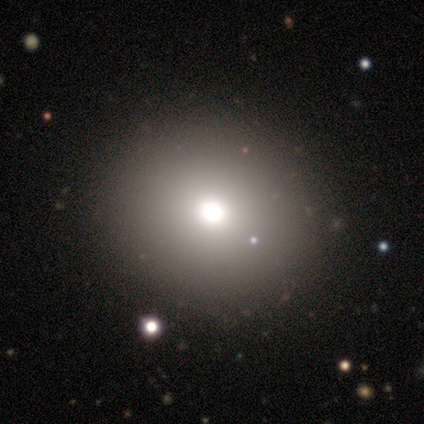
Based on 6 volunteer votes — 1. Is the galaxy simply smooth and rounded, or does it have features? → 67% smooth, 17% featured or disk, 17% star or artifact.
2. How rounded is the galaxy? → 50% round (tied), 50% in between (tied), 0% cigar-shaped.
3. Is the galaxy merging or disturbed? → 100% none, 0% minor disturbance, 0% major disturbance, 0% merger.